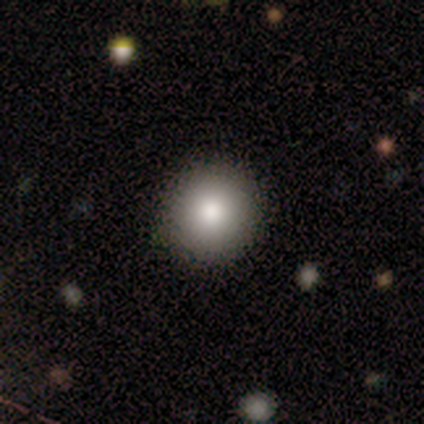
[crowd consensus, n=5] Smooth or featured? 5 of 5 (100%) said smooth. How rounded? 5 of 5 (100%) said round. Merging? 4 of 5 (80%) said none.